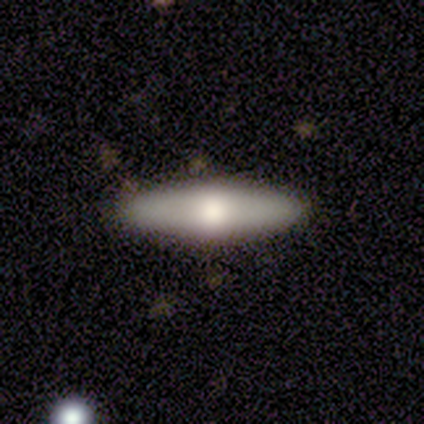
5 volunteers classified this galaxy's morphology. Overall: smooth (60%; featured or disk 40%). How rounded: in between (67%; cigar-shaped 33%). Merging: none (100%).